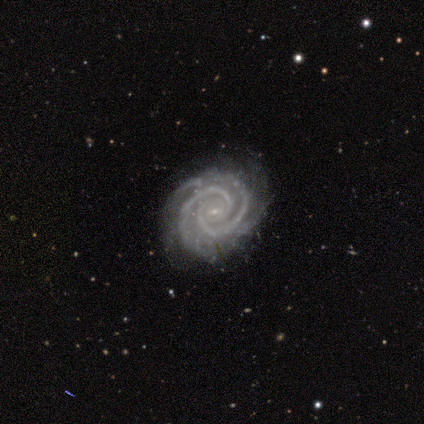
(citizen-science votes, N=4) Volunteers were most divided on "bar" (2-way tie): weak: 50%, no: 50%, strong: 0%. More confident: smooth or featured — featured or disk (100%); edge-on disk — no (100%); spiral arms — yes (100%); spiral winding — tight (100%); spiral arm count — 2 (100%); bulge size — small (100%); merging — none (75%).